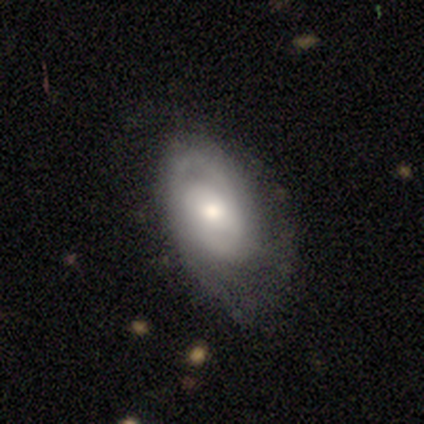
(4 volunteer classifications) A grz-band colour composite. It shows a featured or disk galaxy (100%) with a weak bar (75%), 2 (100%) tight (50%, tied with medium) spiral arms (100%) and a moderate central bulge (75%). Merging: none (50%, tied with minor disturbance).